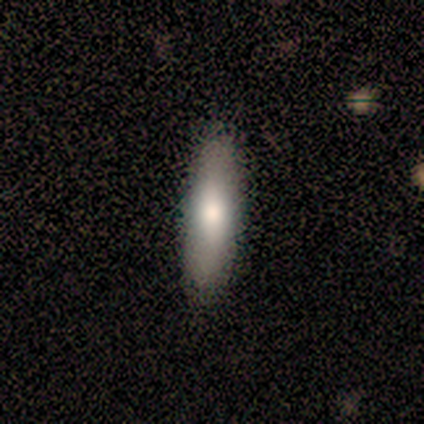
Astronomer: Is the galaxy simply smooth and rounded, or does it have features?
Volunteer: smooth — 100%.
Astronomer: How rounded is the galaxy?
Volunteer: cigar-shaped — 80%.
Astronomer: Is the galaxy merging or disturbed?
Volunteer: none — 100%.